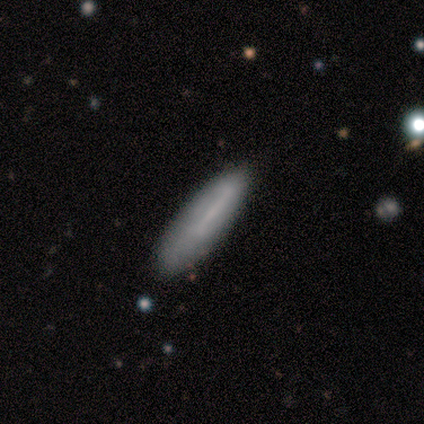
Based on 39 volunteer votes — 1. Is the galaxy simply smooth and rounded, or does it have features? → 62% smooth, 31% featured or disk, 8% star or artifact.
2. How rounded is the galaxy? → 88% cigar-shaped, 12% in between, 0% round.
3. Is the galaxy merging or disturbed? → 81% none, 17% minor disturbance, 3% major disturbance, 0% merger.